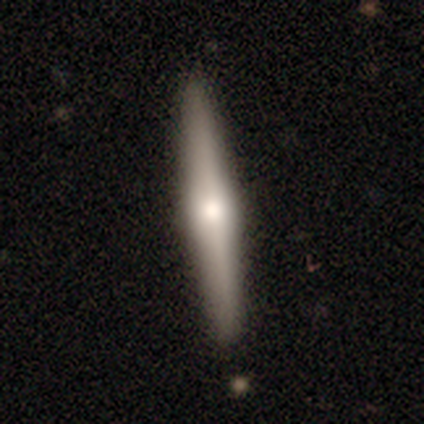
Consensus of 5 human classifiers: Smooth or featured? featured or disk (80%)
Edge-on disk? yes (75%)
Edge-on bulge? rounded (100%)
Merging? none (100%)